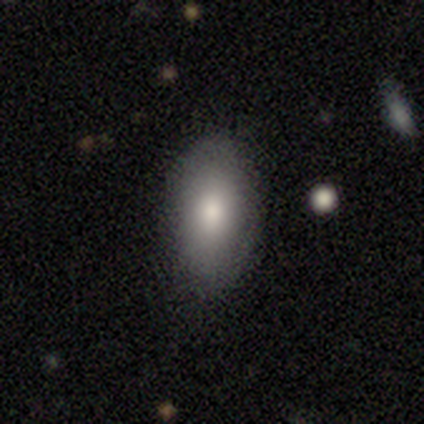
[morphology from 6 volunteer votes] Q: Smooth or featured?
A: smooth (67%); runner-up: featured or disk (17%)
Q: How rounded?
A: round (75%); runner-up: in between (25%)
Q: Merging?
A: none (60%); runner-up: minor disturbance (20%)